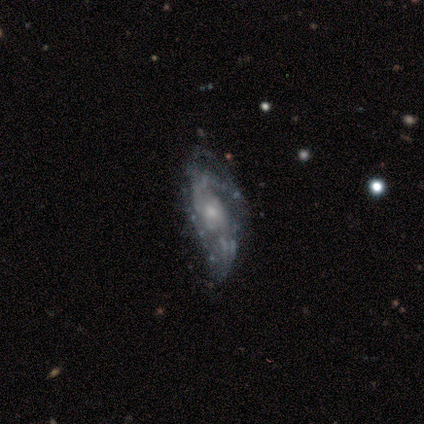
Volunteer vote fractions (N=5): Smooth or featured? 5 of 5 (100%) said featured or disk. Edge-on disk? 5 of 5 (100%) said no. Bar? 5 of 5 (100%) said no. Spiral arms? 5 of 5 (100%) said yes. Spiral winding? 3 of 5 (60%) said medium. Spiral arm count? 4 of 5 (80%) said 2. Bulge size? 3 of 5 (60%) said small. Merging? 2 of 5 (40%, tied with major disturbance) said none.